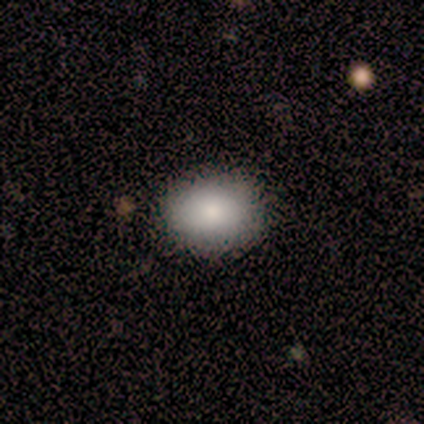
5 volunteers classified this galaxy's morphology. smooth-or-featured: smooth: 80% | star or artifact: 20% | featured or disk: 0%
  how-rounded: round: 50% (tied) | in between: 50% (tied) | cigar-shaped: 0%
  merging: none: 100% | minor disturbance: 0% | major disturbance: 0% | merger: 0%